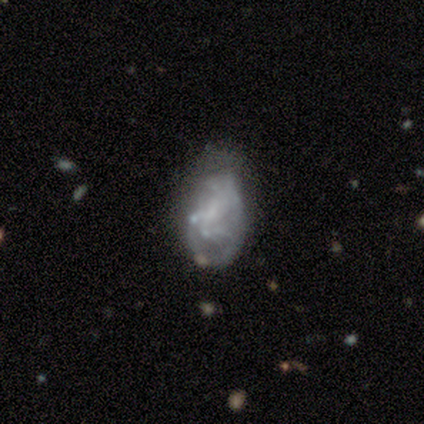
smooth-or-featured: featured or disk: 50% | smooth: 25% | star or artifact: 25%
  disk-edge-on: no: 100% | yes: 0%
    bar: weak: 50% (tied) | no: 50% (tied) | strong: 0%
    has-spiral-arms: yes: 50% (tied) | no: 50% (tied)
      spiral-winding: tight: 100% | medium: 0% | loose: 0%
      spiral-arm-count: can't tell: 100% | 1: 0% | 2: 0% | 3: 0% | 4: 0% | more than 4: 0%
    bulge-size: moderate: 50% (tied) | none: 50% (tied) | dominant: 0% | large: 0% | small: 0%
  merging: none: 33% (tied) | minor disturbance: 33% (tied) | merger: 33% (tied) | major disturbance: 0%